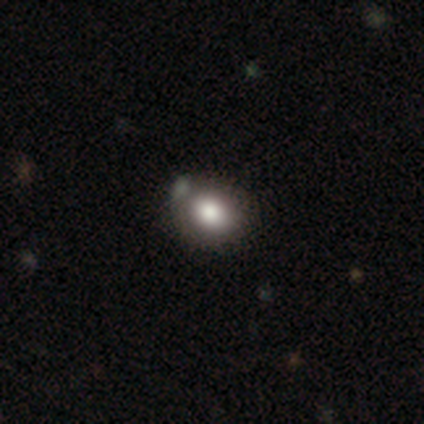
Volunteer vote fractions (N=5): This appears to be a smooth galaxy with no disk features (60%) that is round (100%). Merging: none (75%).